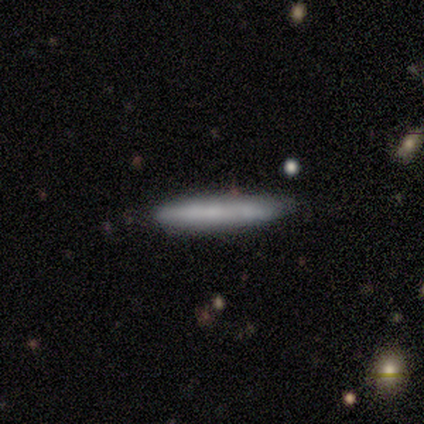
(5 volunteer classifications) smooth 100%, featured or disk 0%, star or artifact 0%. Down the decision tree: how rounded — cigar-shaped (100%); merging — none (100%).